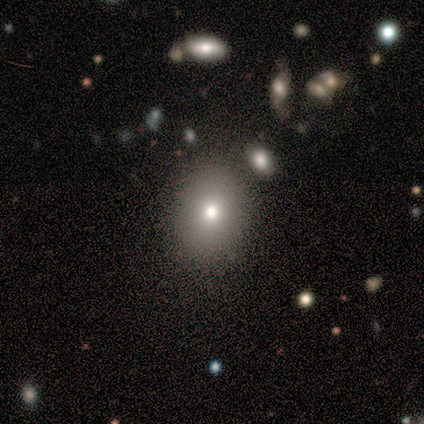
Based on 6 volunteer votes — Q: Smooth or featured?
A: smooth (83%); runner-up: featured or disk (17%)
Q: How rounded?
A: in between (60%); runner-up: round (40%)
Q: Merging?
A: none (83%); runner-up: minor disturbance (17%)